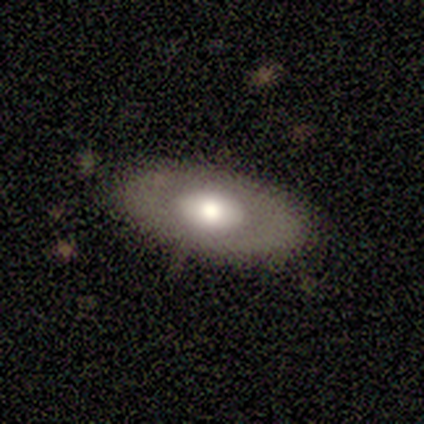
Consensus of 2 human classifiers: Volunteers were most divided on "smooth or featured" (2-way tie): smooth: 50%, featured or disk: 50%, star or artifact: 0%. More confident: how rounded — in between (100%); merging — none (100%).